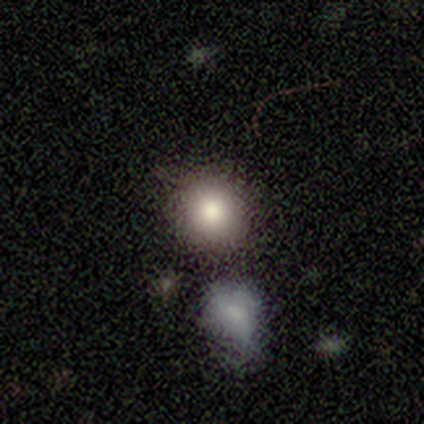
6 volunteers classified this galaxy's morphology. smooth-or-featured: smooth: 100% | featured or disk: 0% | star or artifact: 0%
  how-rounded: round: 83% | in between: 17% | cigar-shaped: 0%
  merging: none: 67% | minor disturbance: 17% | merger: 17% | major disturbance: 0%